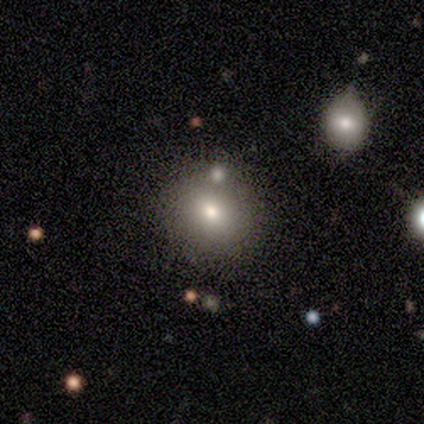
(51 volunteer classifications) Smooth or featured?
  - smooth: 67% *
  - featured or disk: 20%
  - star or artifact: 14%
How rounded?
  - round: 82% *
  - in between: 18%
  - cigar-shaped: 0%
Merging?
  - none: 80% *
  - merger: 11%
  - minor disturbance: 5%
  - major disturbance: 5%